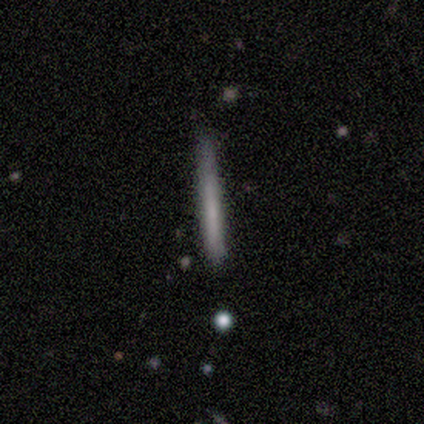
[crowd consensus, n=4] Smooth or featured?
  - smooth: 75% *
  - featured or disk: 25%
  - star or artifact: 0%
How rounded?
  - cigar-shaped: 100% *
  - round: 0%
  - in between: 0%
Merging?
  - minor disturbance: 75% *
  - none: 25%
  - major disturbance: 0%
  - merger: 0%